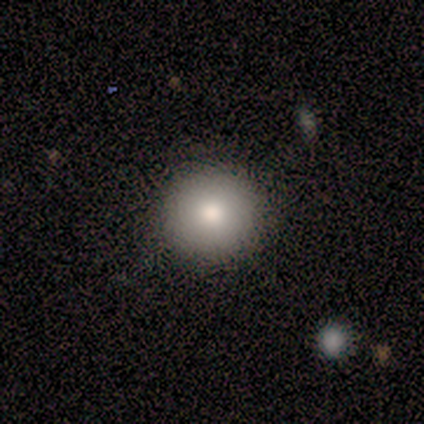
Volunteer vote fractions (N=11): A smooth galaxy with no disk features (82%) that is round (100%). Merging: none (90%).